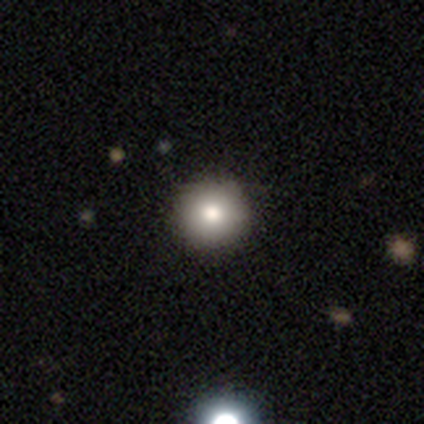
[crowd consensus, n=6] Volunteers were most divided on "smooth or featured": smooth: 83%, star or artifact: 17%, featured or disk: 0%. More confident: how rounded — round (100%); merging — none (100%).